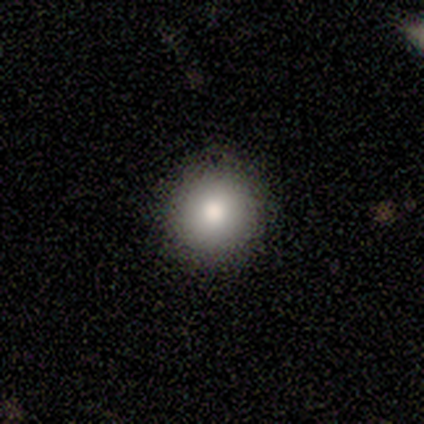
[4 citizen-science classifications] Overall: smooth (100%). How rounded: round (100%). Merging: none (75%).